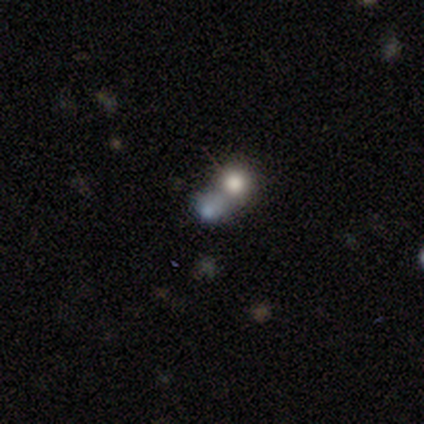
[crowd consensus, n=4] smooth 100%, featured or disk 0%, star or artifact 0%. Down the decision tree: how rounded — round (100%); merging — merger (50%).